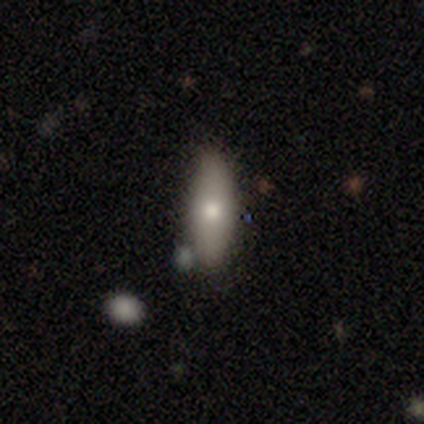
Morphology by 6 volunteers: Overall: smooth (83%). How rounded: in between (80%). Merging: none (83%).